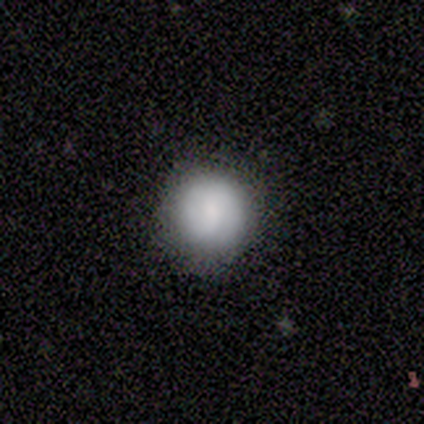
This appears to be a smooth galaxy with no disk features (60%) that is round (100%). Merging: none (80%).